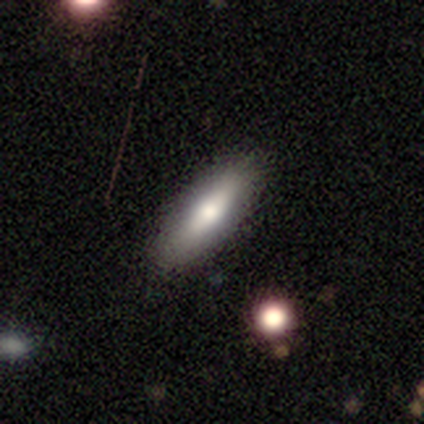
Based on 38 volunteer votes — Smooth or featured: smooth — 63% (featured or disk — 29%)
How rounded: in between — 54% (cigar-shaped — 46%)
Merging: none — 77% (minor disturbance — 17%)